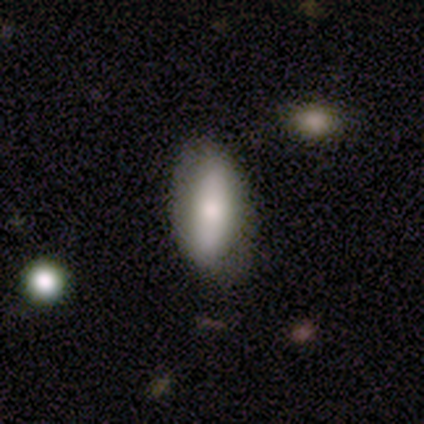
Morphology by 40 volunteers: Q: Smooth or featured?
A: smooth (68%); runner-up: featured or disk (30%)
Q: How rounded?
A: in between (74%); runner-up: cigar-shaped (26%)
Q: Merging?
A: none (85%); runner-up: minor disturbance (10%)